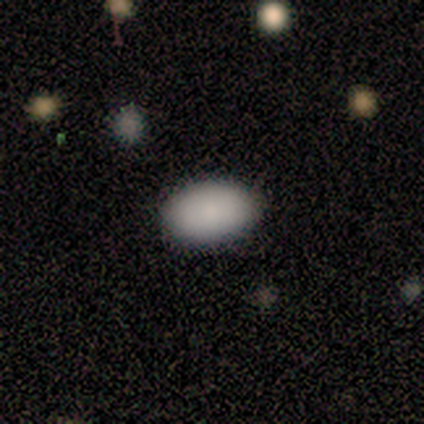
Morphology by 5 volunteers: A smooth galaxy with no disk features (100%) that is in between round and cigar-shaped (100%).

Vote fractions:
- Smooth or featured? smooth: 100% / featured or disk: 0% / star or artifact: 0%
- How rounded? in between: 100% / round: 0% / cigar-shaped: 0%
- Merging? none: 100% / minor disturbance: 0% / major disturbance: 0% / merger: 0%